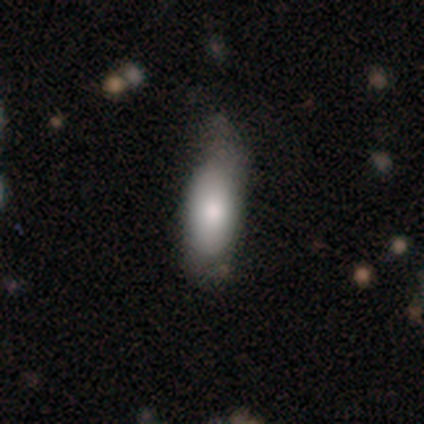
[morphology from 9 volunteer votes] This is likely a smooth galaxy (67%). How rounded: possibly in between (50%, tied with cigar-shaped). Merging: marginally none (44%).